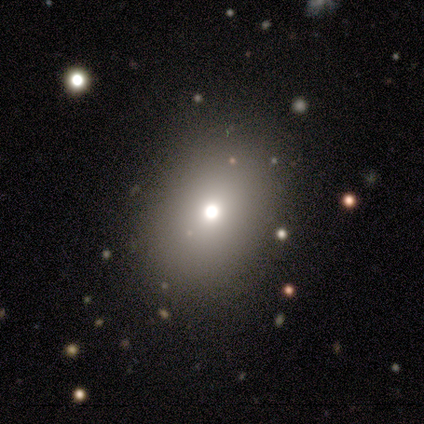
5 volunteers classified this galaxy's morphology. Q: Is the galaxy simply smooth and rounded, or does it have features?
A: smooth — 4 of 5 (80%).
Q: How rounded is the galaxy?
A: round — 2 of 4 (50%, tied with in between).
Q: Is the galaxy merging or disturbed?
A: none — 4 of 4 (100%).